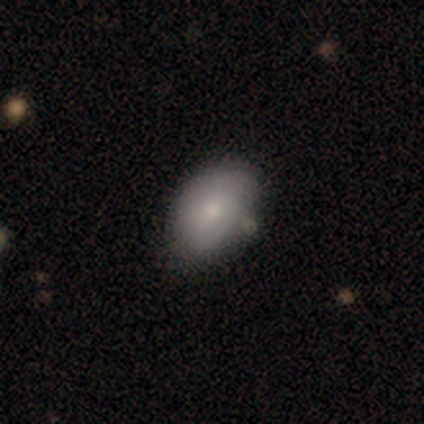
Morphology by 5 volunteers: This appears to be a smooth galaxy with no disk features (80%) that is in between round and cigar-shaped (100%). Merging: none (80%).